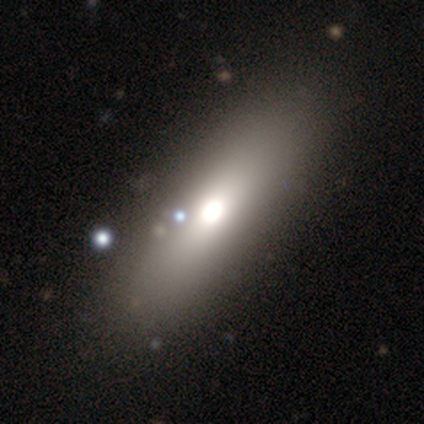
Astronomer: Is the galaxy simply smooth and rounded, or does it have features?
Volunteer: smooth — 100%.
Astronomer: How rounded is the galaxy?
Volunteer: in between — 100%.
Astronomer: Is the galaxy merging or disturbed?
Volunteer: none — 80%.